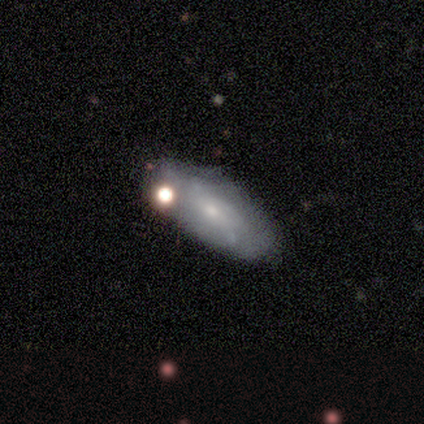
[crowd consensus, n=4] This appears to be a smooth galaxy with no disk features (50%, tied with featured or disk) that is in between round and cigar-shaped (100%). Merging: minor disturbance (50%).